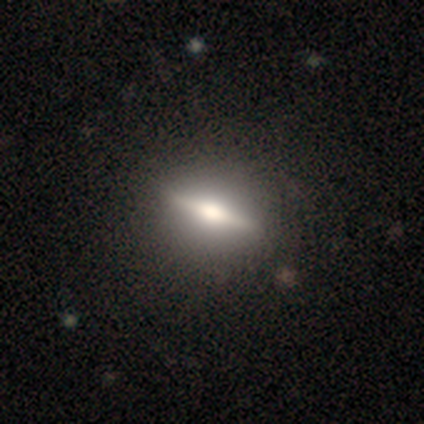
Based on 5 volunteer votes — Smooth or featured? 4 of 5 (80%) said featured or disk. Edge-on disk? 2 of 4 (50%, tied with no) said yes. Edge-on bulge? 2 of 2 (100%) said rounded. Merging? 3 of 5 (60%) said none.